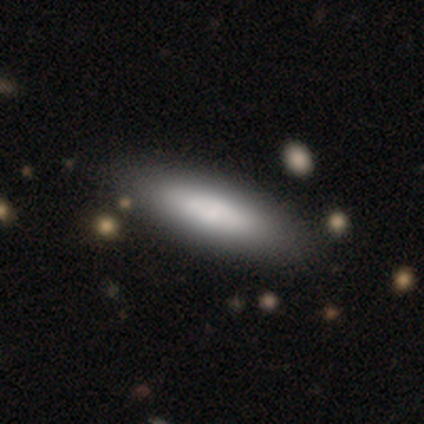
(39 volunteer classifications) This is clearly a smooth galaxy (85%). How rounded: possibly cigar-shaped (58%). Merging: likely none (62%).